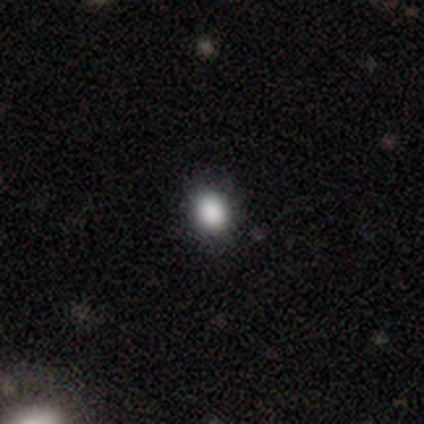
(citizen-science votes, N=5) Q: Smooth or featured?
A: smooth (100%)
Q: How rounded?
A: round (60%); runner-up: in between (40%)
Q: Merging?
A: none (100%)